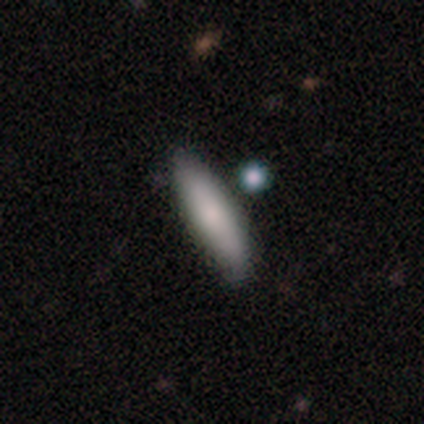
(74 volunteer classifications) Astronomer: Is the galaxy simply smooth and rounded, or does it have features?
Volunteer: smooth — 77%.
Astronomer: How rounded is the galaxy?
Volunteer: cigar-shaped — 63%.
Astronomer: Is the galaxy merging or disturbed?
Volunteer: none — 41%.